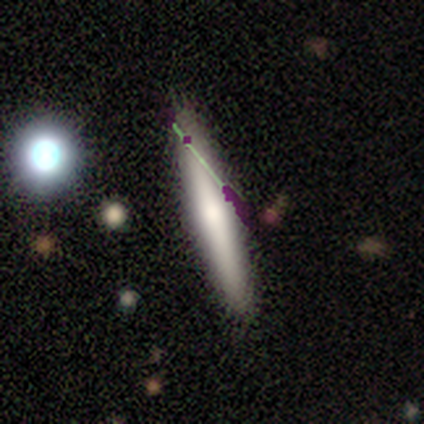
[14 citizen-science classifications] smooth 50%, star or artifact 29%, featured or disk 21%. Down the decision tree: how rounded — cigar-shaped (86%); merging — none (100%).